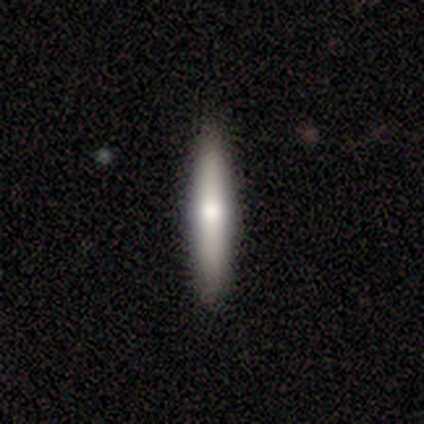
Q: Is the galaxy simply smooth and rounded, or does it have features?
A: smooth — 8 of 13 (62%).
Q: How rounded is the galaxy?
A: cigar-shaped — 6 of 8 (75%).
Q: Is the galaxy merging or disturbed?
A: none — 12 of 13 (92%).